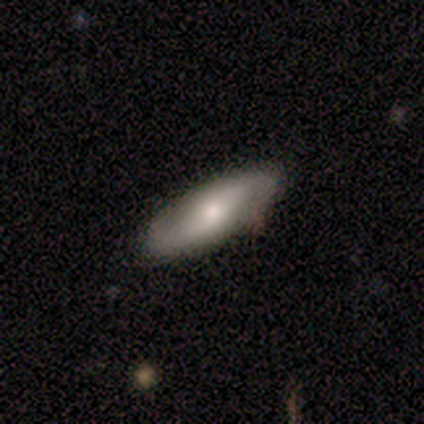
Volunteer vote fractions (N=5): This is likely a featured or disk galaxy (60%). It is likely not viewed edge-on (67%). Bar: possibly weak (50%, tied with no). Spiral arm pattern: clearly yes (100%). Spiral arm count: clearly 2 (100%). Spiral winding: possibly medium (50%, tied with loose). Central bulge: possibly moderate (50%, tied with small). Merging: clearly none (100%).